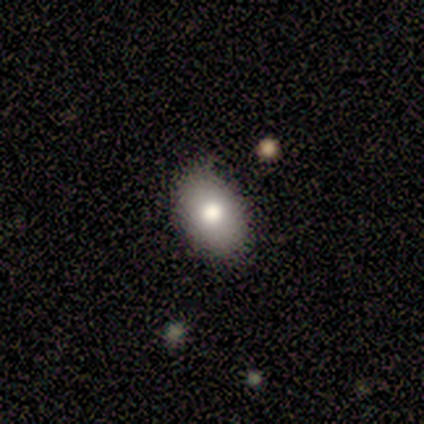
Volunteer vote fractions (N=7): A smooth galaxy with no disk features (86%) that is in between round and cigar-shaped (83%).

Vote fractions:
- Smooth or featured? smooth: 86% / star or artifact: 14% / featured or disk: 0%
- How rounded? in between: 83% / round: 17% / cigar-shaped: 0%
- Merging? none: 83% / minor disturbance: 17% / major disturbance: 0% / merger: 0%